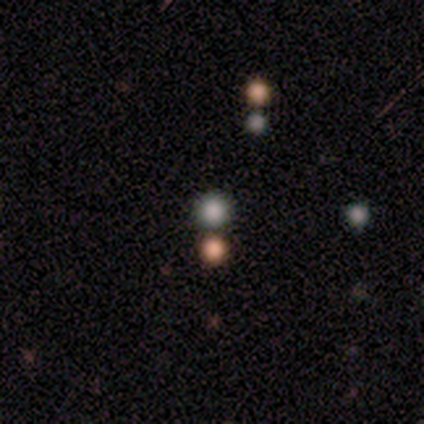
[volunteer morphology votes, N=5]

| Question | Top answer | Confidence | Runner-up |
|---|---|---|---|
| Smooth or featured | smooth | 60% | featured or disk (20%) |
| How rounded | round | 100% | — |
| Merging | none | 100% | — |